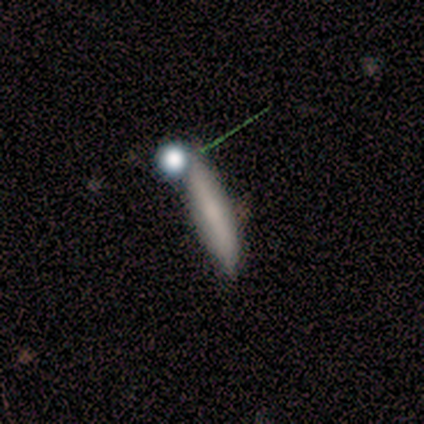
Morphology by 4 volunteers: smooth 50%, featured or disk 25%, star or artifact 25%. Down the decision tree: how rounded — cigar-shaped (100%); merging — none (67%).